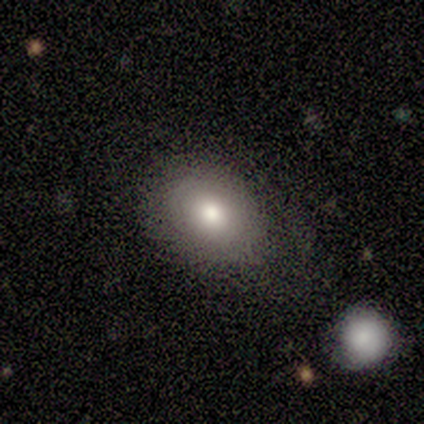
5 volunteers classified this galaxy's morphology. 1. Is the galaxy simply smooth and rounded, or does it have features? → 80% smooth, 20% star or artifact, 0% featured or disk.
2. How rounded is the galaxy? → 100% in between, 0% round, 0% cigar-shaped.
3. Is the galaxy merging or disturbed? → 75% none, 25% minor disturbance, 0% major disturbance, 0% merger.